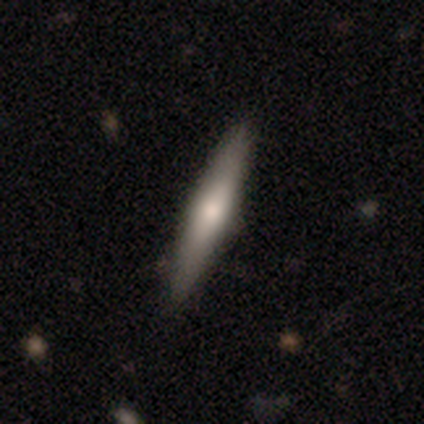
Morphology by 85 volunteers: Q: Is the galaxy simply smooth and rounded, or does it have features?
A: smooth — 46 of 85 (54%).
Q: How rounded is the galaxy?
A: cigar-shaped — 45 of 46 (98%).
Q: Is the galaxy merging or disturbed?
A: none — 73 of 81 (90%).